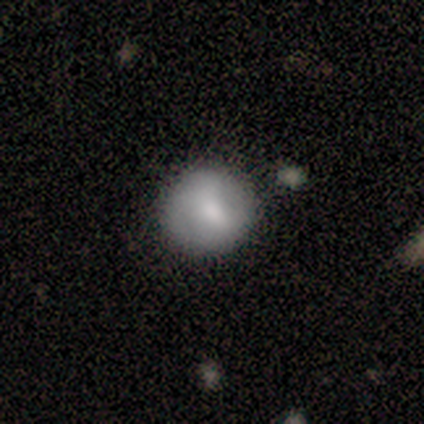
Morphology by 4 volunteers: Smooth or featured?
  - featured or disk: 75% *
  - smooth: 25%
  - star or artifact: 0%
Edge-on disk?
  - no: 100% *
  - yes: 0%
Bar?
  - no: 100% *
  - strong: 0%
  - weak: 0%
Spiral arms?
  - no: 100% *
  - yes: 0%
Bulge size?
  - moderate: 100% *
  - dominant: 0%
  - large: 0%
  - small: 0%
  - none: 0%
Merging?
  - none: 75% *
  - minor disturbance: 25%
  - major disturbance: 0%
  - merger: 0%